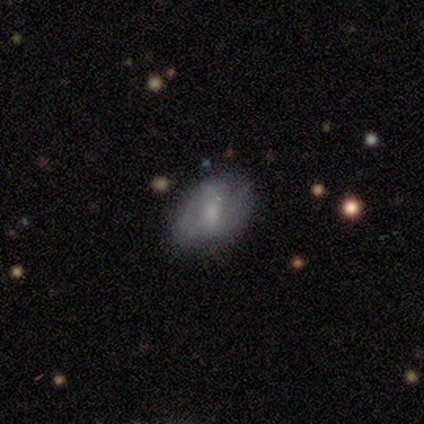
Smooth or featured? 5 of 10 (50%) said featured or disk. Edge-on disk? 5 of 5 (100%) said no. Bar? 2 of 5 (40%, tied with no) said weak. Spiral arms? 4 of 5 (80%) said yes. Spiral winding? 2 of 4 (50%) said medium. Spiral arm count? 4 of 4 (100%) said 2. Bulge size? 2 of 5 (40%, tied with none) said small. Merging? 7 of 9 (78%) said none.